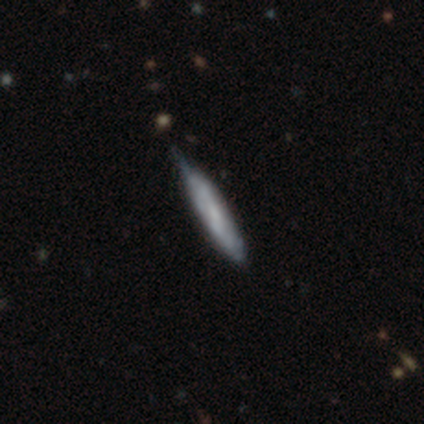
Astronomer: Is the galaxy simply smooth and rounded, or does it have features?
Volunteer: smooth — 40%, tied with featured or disk at 40%.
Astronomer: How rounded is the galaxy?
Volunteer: cigar-shaped — 100%.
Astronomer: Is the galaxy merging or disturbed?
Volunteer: none — 50%, tied with minor disturbance at 50%.